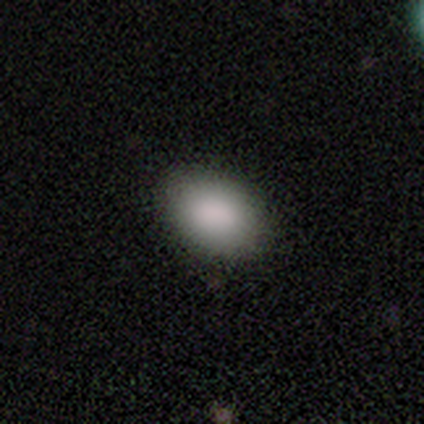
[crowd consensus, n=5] Q: Smooth or featured?
A: smooth (60%); runner-up: featured or disk (40%)
Q: How rounded?
A: in between (67%); runner-up: round (33%)
Q: Merging?
A: none (80%); runner-up: minor disturbance (20%)